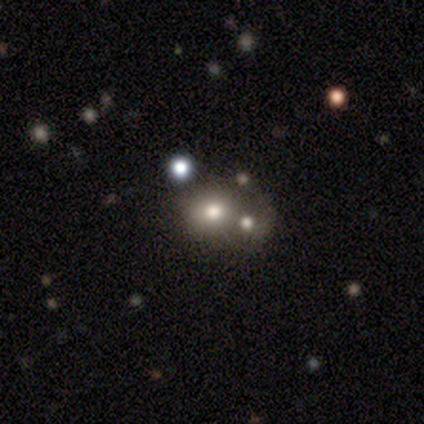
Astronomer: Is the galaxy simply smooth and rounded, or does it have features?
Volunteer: star or artifact — 67%.